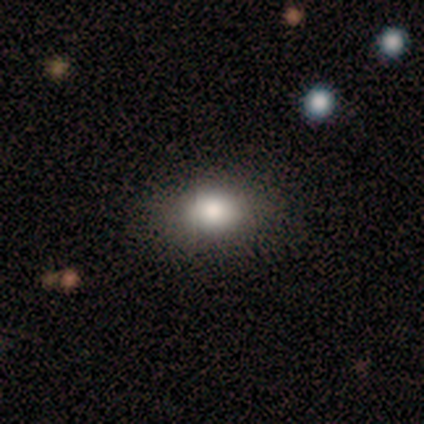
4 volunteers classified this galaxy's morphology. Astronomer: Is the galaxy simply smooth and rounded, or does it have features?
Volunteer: smooth — 100%.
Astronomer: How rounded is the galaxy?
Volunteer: in between — 100%.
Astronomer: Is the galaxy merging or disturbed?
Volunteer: none — 75%.